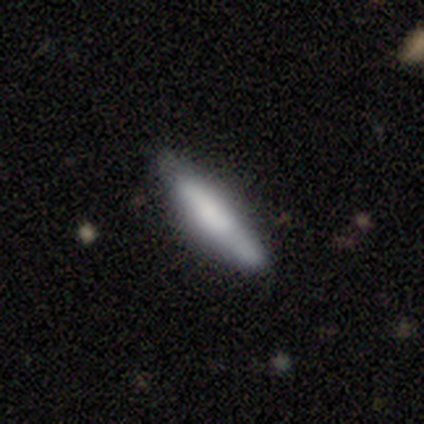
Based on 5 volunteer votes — A smooth galaxy with no disk features (60%) that is cigar-shaped (100%). Merging: none (100%).